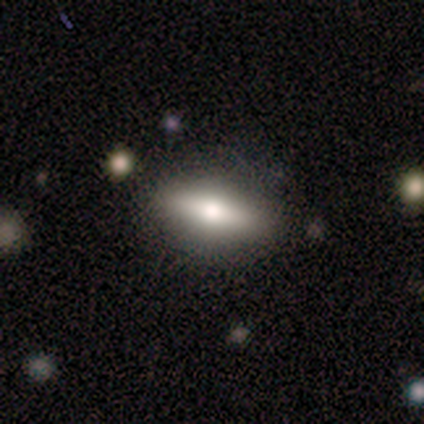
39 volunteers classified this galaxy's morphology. Smooth or featured: smooth — 62% (featured or disk — 31%)
How rounded: in between — 83% (cigar-shaped — 17%)
Merging: none — 64% (minor disturbance — 6%)